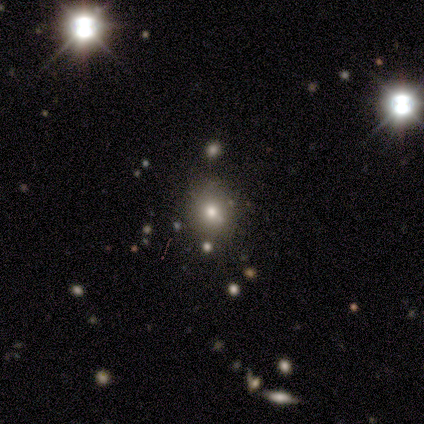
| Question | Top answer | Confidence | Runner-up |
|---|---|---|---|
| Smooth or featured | smooth | 80% | star or artifact (20%) |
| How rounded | round | 100% | — |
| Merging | none | 50% | minor disturbance (25%) |